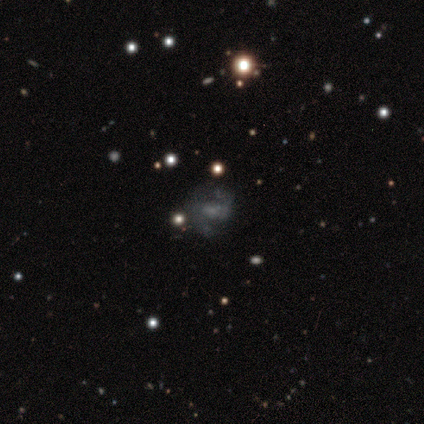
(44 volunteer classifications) Smooth or featured? featured or disk (84%)
Edge-on disk? no (100%)
Bar? no (38%)
Spiral arms? yes (84%)
Spiral winding? medium (39%)
Spiral arm count? 2 (84%)
Bulge size? none (46%)
Merging? none (62%)